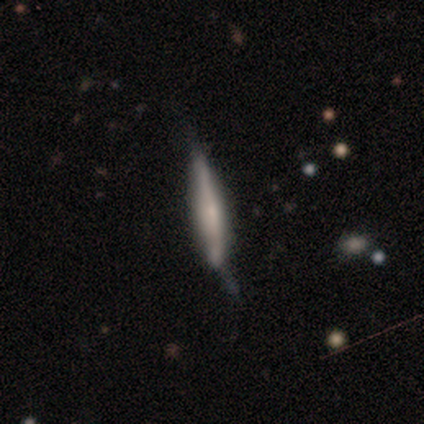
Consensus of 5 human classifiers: smooth_or_featured: featured or disk (p=0.60) [alt: smooth p=0.20]
disk_edge_on: yes (p=1.00)
edge_on_bulge: boxy (p=0.67) [alt: none p=0.33]
merging: none (p=0.50) [tied with: minor disturbance p=0.50]